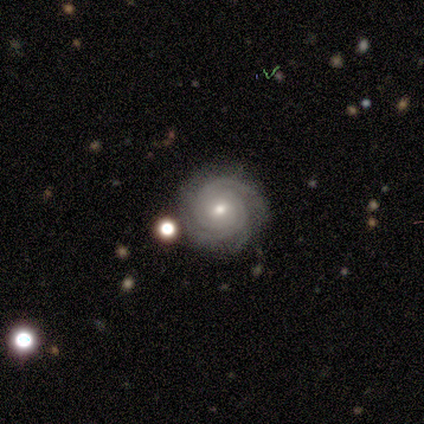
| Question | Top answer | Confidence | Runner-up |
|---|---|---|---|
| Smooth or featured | featured or disk | 100% | — |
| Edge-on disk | no | 100% | — |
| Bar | no | 80% | weak (20%) |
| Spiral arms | yes | 100% | — |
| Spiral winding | tight | 80% | loose (20%) |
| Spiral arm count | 3 | 40% | 2 (20%) |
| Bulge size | moderate | 60% | small (40%) |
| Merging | none | 100% | — |